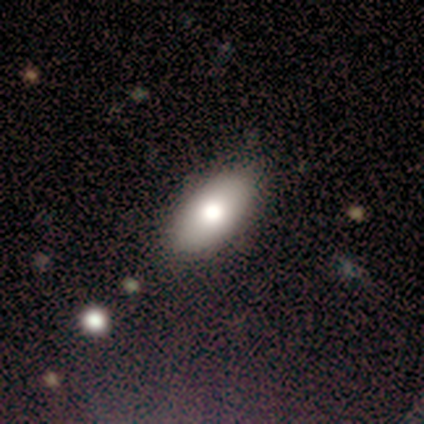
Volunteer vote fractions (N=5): Volunteers were most divided on "smooth or featured": smooth: 60%, featured or disk: 20%, star or artifact: 20%. More confident: how rounded — in between (100%); merging — none (100%).